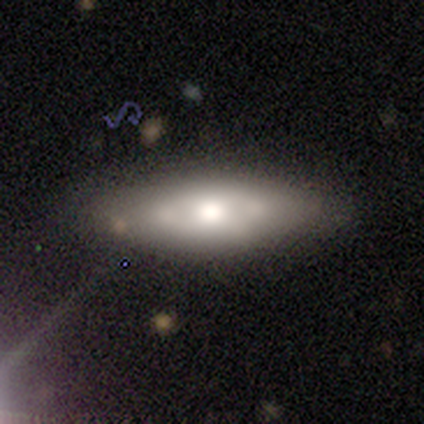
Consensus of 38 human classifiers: Smooth or featured: smooth — 53% (featured or disk — 45%)
How rounded: in between — 65% (cigar-shaped — 35%)
Merging: none — 76% (minor disturbance — 11%)